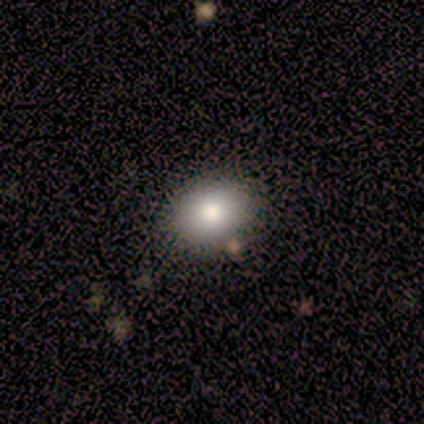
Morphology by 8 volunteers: Volunteers were most divided on "how rounded": in between: 60%, round: 40%, cigar-shaped: 0%. More confident: merging — none (83%); smooth or featured — smooth (62%).